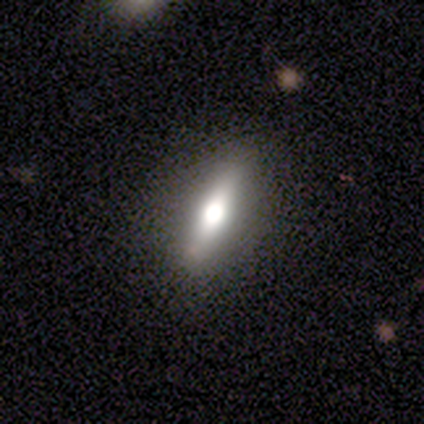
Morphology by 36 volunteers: A smooth galaxy with no disk features (50%) that is cigar-shaped (56%). Merging: none (94%).